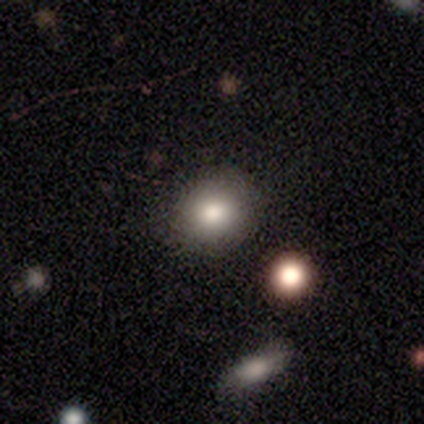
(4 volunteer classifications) Volunteers were most divided on "how rounded": round: 67%, in between: 33%, cigar-shaped: 0%. More confident: merging — none (100%); smooth or featured — smooth (75%).